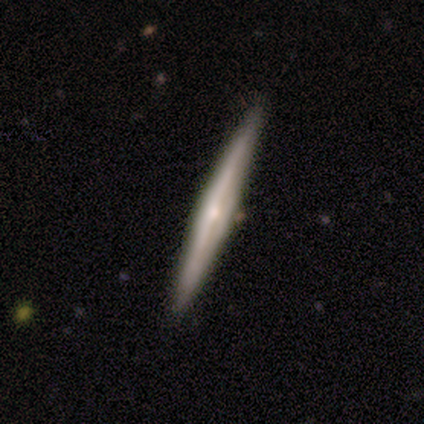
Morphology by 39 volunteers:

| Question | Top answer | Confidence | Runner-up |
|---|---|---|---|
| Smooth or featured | featured or disk | 69% | smooth (26%) |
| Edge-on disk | yes | 100% | — |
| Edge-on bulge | rounded | 74% | none (19%) |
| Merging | none | 95% | minor disturbance (3%) |